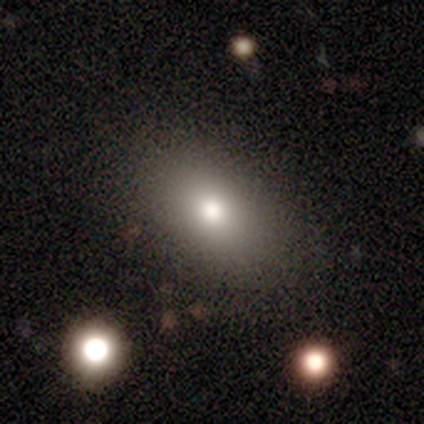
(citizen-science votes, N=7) Smooth or featured? smooth (71%)
How rounded? in between (100%)
Merging? none (83%)